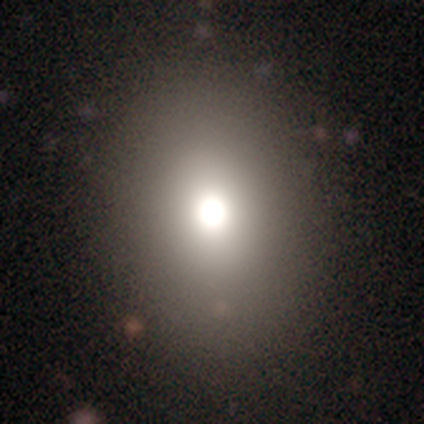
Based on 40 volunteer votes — smooth 70%, star or artifact 22%, featured or disk 8%. Down the decision tree: how rounded — in between (61%); merging — none (90%).